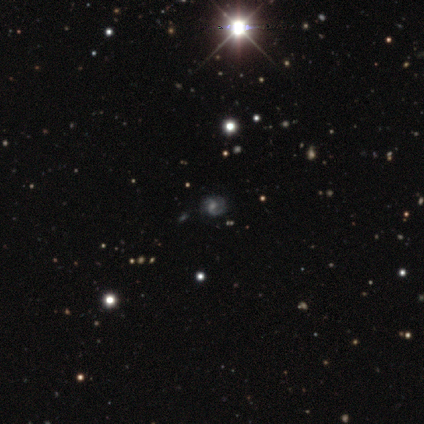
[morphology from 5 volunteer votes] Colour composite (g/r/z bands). It shows a featured or disk galaxy (100%) with no bar (100%), 2 (80%) medium (80%) spiral arms (100%) and a moderate central bulge (40%, tied with small). Merging: none (100%).